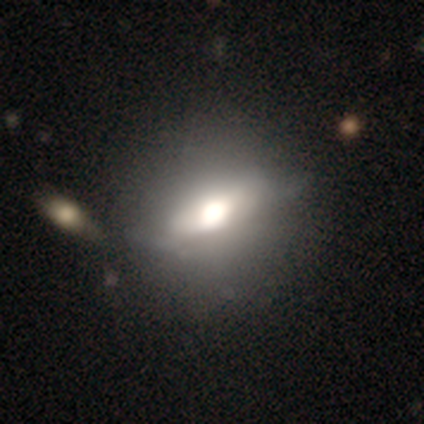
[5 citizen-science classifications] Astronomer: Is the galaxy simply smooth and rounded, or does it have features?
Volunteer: smooth — 40%, tied with featured or disk at 40%.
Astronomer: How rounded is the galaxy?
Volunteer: round — 50%, tied with in between at 50%.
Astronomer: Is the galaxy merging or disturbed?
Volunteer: none — 50%, tied with minor disturbance at 50%.